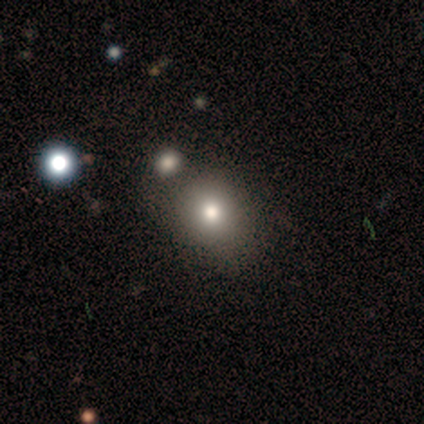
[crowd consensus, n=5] Volunteers were most divided on "how rounded": round: 67%, in between: 33%, cigar-shaped: 0%. More confident: merging — none (75%); smooth or featured — smooth (60%).